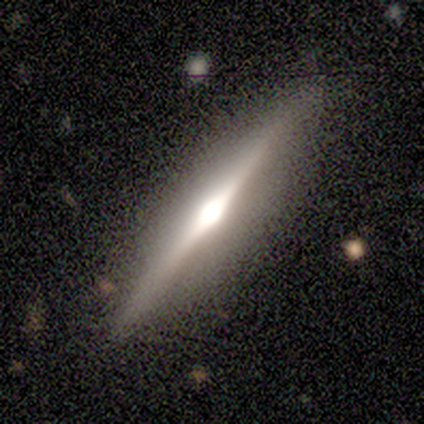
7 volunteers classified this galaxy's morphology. Volunteers were most divided on "merging": none: 71%, minor disturbance: 14%, major disturbance: 14%, merger: 0%. More confident: edge-on disk — yes (100%); edge-on bulge — rounded (100%); smooth or featured — featured or disk (86%).